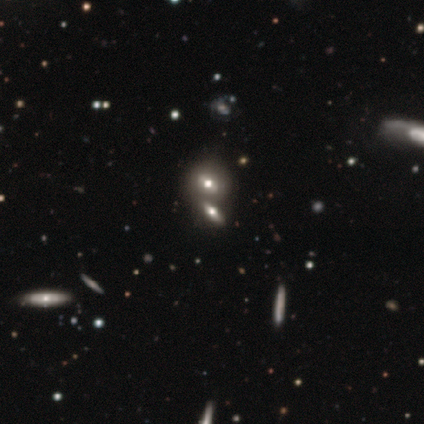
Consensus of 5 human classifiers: A smooth galaxy with no disk features (60%) that is in between round and cigar-shaped (67%). Merging: none (75%).